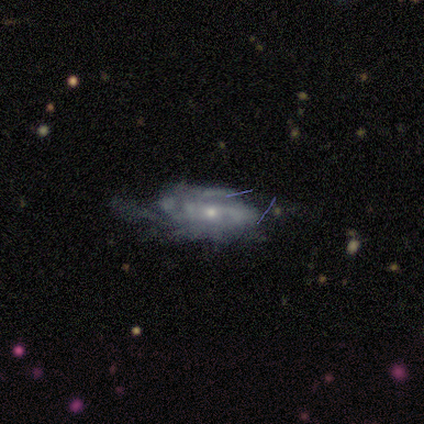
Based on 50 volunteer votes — Overall: featured or disk (68%). Edge-on disk: no (97%). Bar: no (67%; weak 30%). Spiral arms: yes (88%). Spiral arm count: can't tell (45%; 2 24%). Spiral winding: tight (48%; medium 38%). Bulge size: small (67%; moderate 30%). Merging: minor disturbance (43%; none 36%).